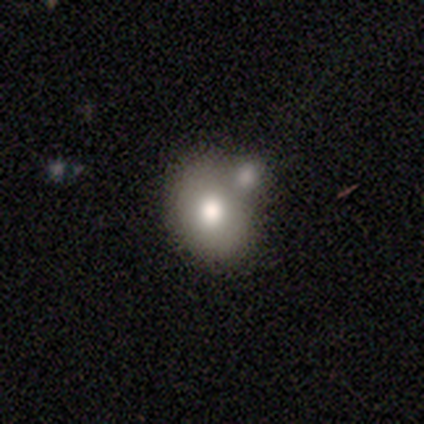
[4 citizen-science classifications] Volunteers were most divided on "smooth or featured" (2-way tie): smooth: 50%, featured or disk: 50%, star or artifact: 0%. More confident: how rounded — round (100%); merging — merger (100%).